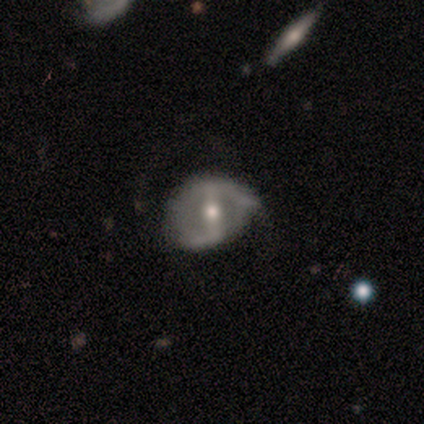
A featured or disk galaxy (64%) with a strong bar (50%), 2 (87%) loose (57%) spiral arms (88%) and a moderate central bulge (62%).

Vote fractions:
- Smooth or featured? featured or disk: 64% / smooth: 32% / star or artifact: 5%
- Edge-on disk? no: 93% / yes: 7%
- Bar? strong: 50% / weak: 27% / no: 23%
- Spiral arms? yes: 88% / no: 12%
- Spiral winding? loose: 57% / tight: 30% / medium: 13%
- Spiral arm count? 2: 87% / can't tell: 9% / 1: 4% / 3: 0% / 4: 0% / more than 4: 0%
- Bulge size? moderate: 62% / small: 31% / large: 4% / none: 4% / dominant: 0%
- Merging? none: 64% / minor disturbance: 26% / major disturbance: 10% / merger: 0%